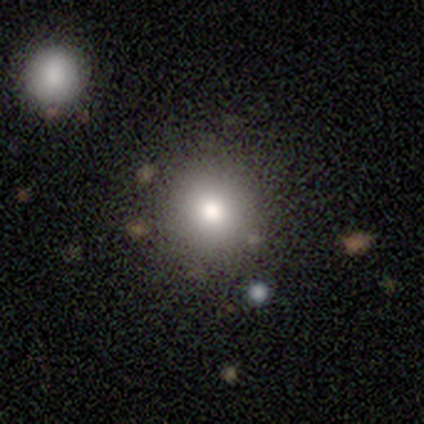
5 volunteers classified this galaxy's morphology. This appears to be a smooth galaxy with no disk features (80%) that is round (100%). Merging: none (100%).